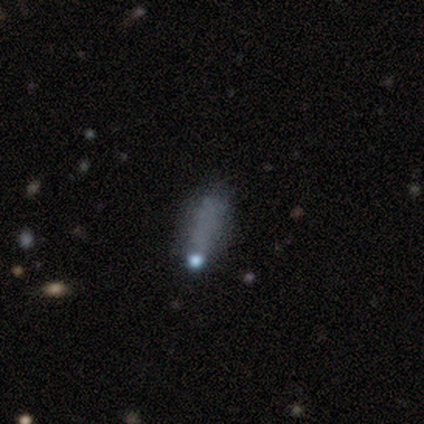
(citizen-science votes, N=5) Q: Smooth or featured?
A: star or artifact (60%); runner-up: featured or disk (40%)